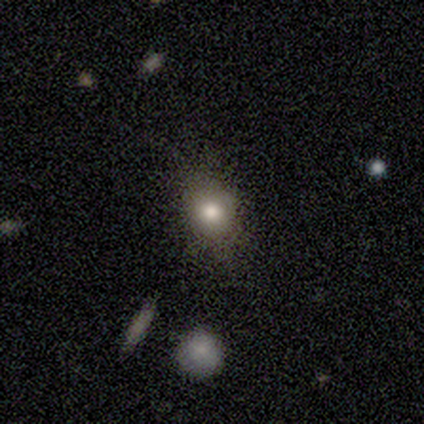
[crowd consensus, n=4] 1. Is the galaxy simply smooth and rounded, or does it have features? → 50% smooth (tied), 50% star or artifact (tied), 0% featured or disk.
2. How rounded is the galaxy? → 100% round, 0% in between, 0% cigar-shaped.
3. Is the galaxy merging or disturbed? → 100% none, 0% minor disturbance, 0% major disturbance, 0% merger.